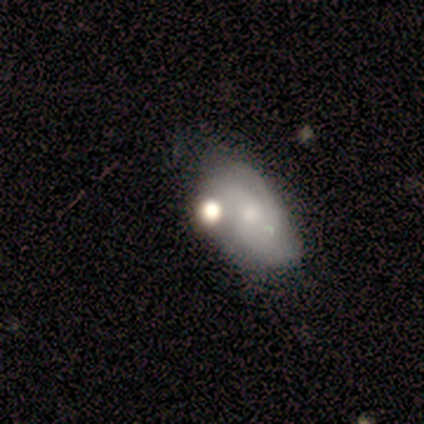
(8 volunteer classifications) Smooth or featured? 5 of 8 (62%) said smooth. How rounded? 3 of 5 (60%) said in between. Merging? 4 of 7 (57%) said none.